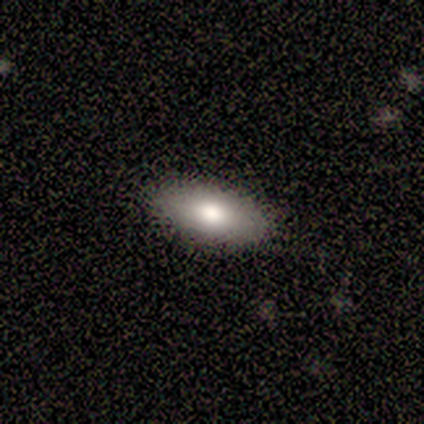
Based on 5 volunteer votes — A smooth galaxy with no disk features (80%) that is in between round and cigar-shaped (100%). Merging: none (100%).